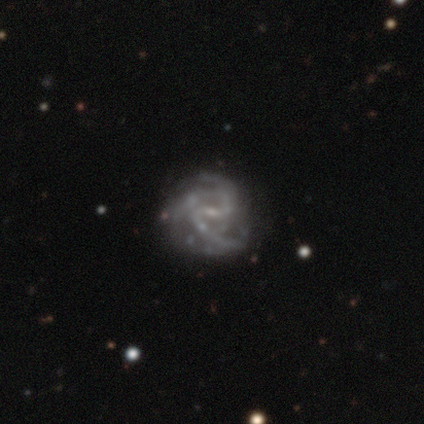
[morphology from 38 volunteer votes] smooth-or-featured: featured or disk: 89% | star or artifact: 8% | smooth: 3%
  disk-edge-on: no: 100% | yes: 0%
    bar: weak: 65% | no: 21% | strong: 15%
    has-spiral-arms: yes: 85% | no: 15%
      spiral-winding: medium: 69% | loose: 17% | tight: 14%
      spiral-arm-count: 3: 41% | 2: 31% | can't tell: 21% | 1: 3% | 4: 3% | more than 4: 0%
    bulge-size: small: 76% | none: 18% | moderate: 6% | dominant: 0% | large: 0%
  merging: none: 54% | minor disturbance: 40% | major disturbance: 3% | merger: 3%